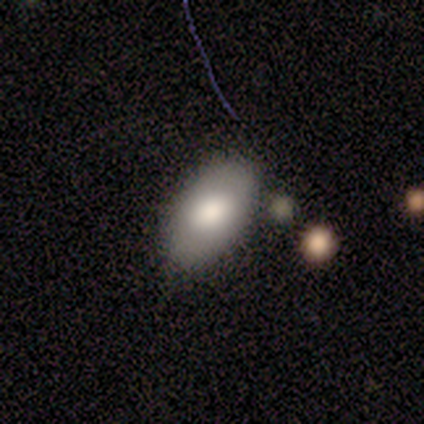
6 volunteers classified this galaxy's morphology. Overall: smooth (83%). How rounded: in between (100%). Merging: none (100%).